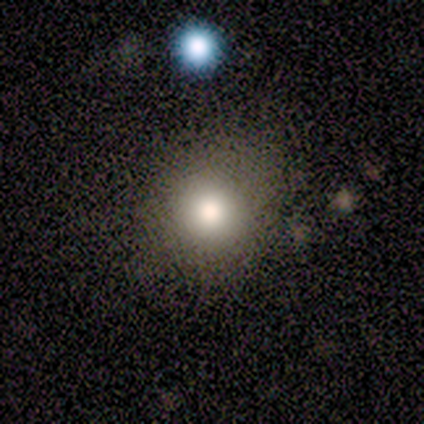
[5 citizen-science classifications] Morphology: type=smooth (100%); roundness=round (100%); merging=none (80%).